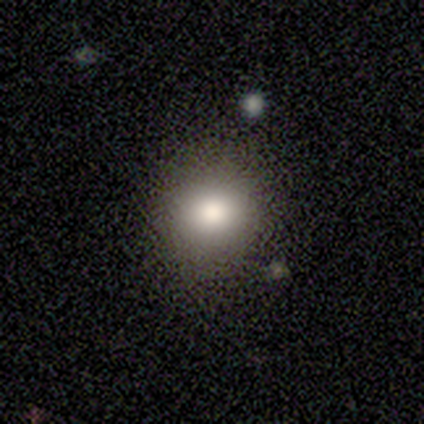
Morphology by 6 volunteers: Smooth or featured: smooth — 67% (star or artifact — 33%)
How rounded: round — 100%
Merging: none — 100%